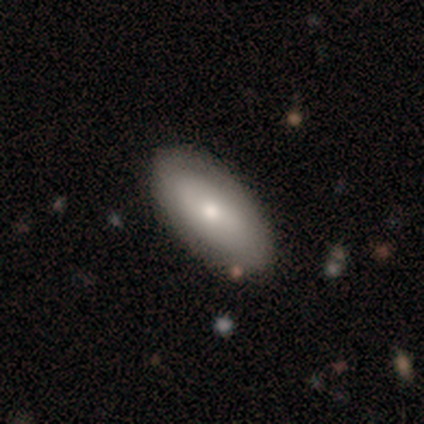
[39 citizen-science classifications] smooth-or-featured: smooth: 72% | featured or disk: 21% | star or artifact: 8%
  how-rounded: in between: 86% | cigar-shaped: 11% | round: 4%
  merging: none: 72% | minor disturbance: 28% | major disturbance: 0% | merger: 0%